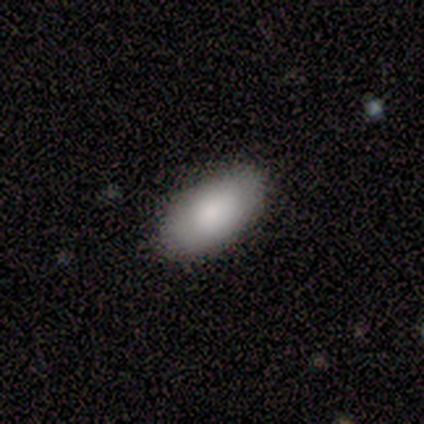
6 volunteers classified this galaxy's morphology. Smooth or featured? smooth (83%)
How rounded? in between (100%)
Merging? none (67%)